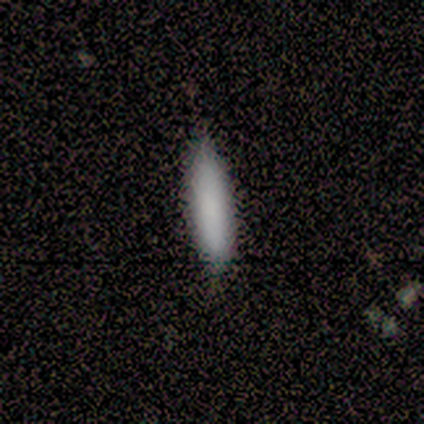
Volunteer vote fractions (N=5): Smooth or featured: smooth — 80% (star or artifact — 20%)
How rounded: cigar-shaped — 75% (in between — 25%)
Merging: none — 100%